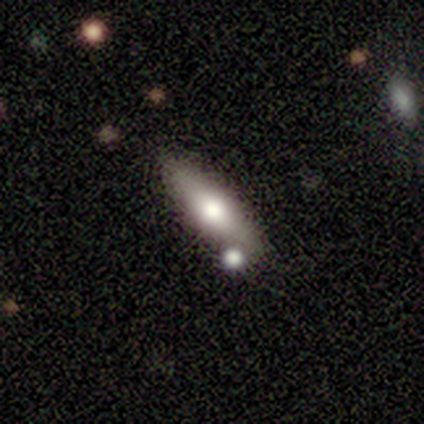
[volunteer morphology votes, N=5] This is clearly a featured or disk galaxy (80%). It is likely viewed edge-on (75%). Edge-on bulge: likely rounded (67%). Merging: possibly none (50%).